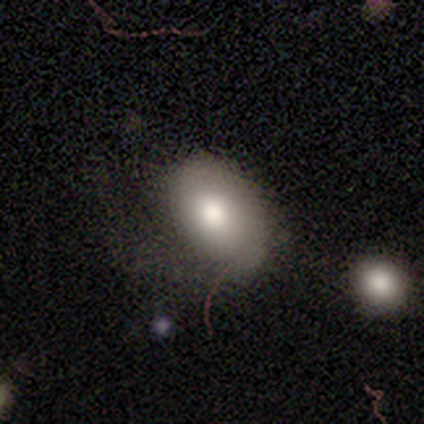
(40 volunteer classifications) smooth-or-featured: smooth: 68% | featured or disk: 20% | star or artifact: 12%
  how-rounded: in between: 85% | round: 11% | cigar-shaped: 4%
  merging: none: 37% | major disturbance: 31% | minor disturbance: 26% | merger: 6%